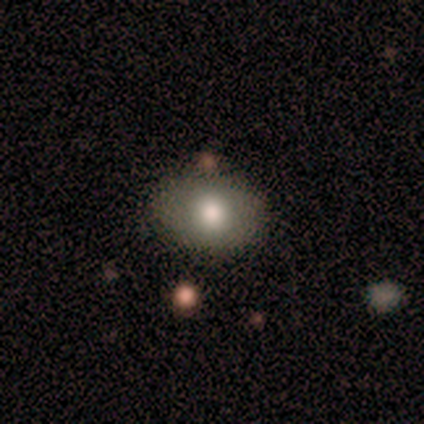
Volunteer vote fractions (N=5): Overall: smooth (80%). How rounded: in between (75%). Merging: none (75%).